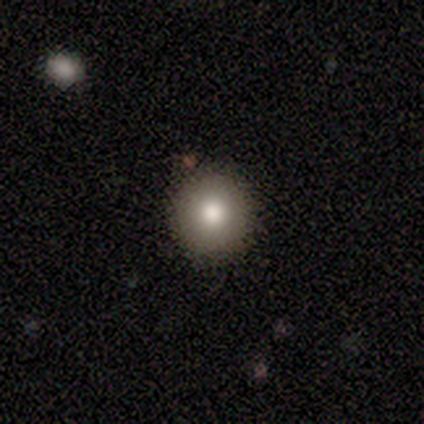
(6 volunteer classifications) Smooth or featured? smooth (100%)
How rounded? round (100%)
Merging? none (100%)